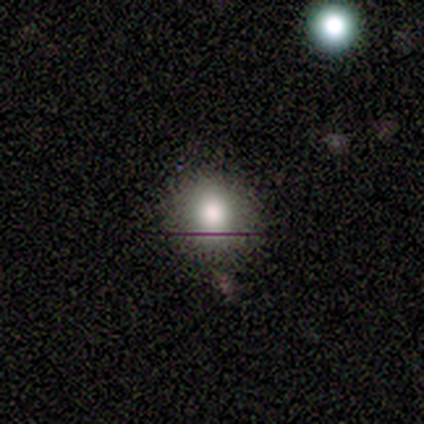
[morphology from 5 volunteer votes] smooth-or-featured: smooth: 80% | featured or disk: 20% | star or artifact: 0%
  how-rounded: round: 100% | in between: 0% | cigar-shaped: 0%
  merging: none: 100% | minor disturbance: 0% | major disturbance: 0% | merger: 0%